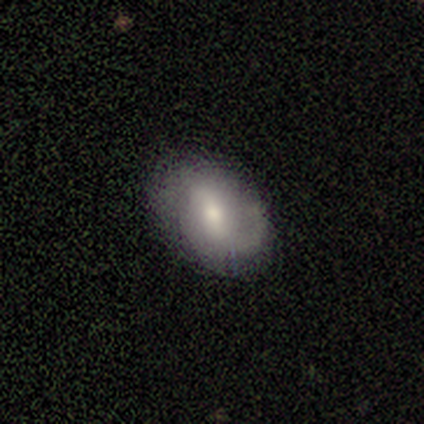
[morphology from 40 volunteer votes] smooth-or-featured: featured or disk: 60% | smooth: 38% | star or artifact: 2%
  disk-edge-on: no: 96% | yes: 4%
    bar: weak: 52% | strong: 26% | no: 22%
    has-spiral-arms: yes: 78% | no: 22%
      spiral-winding: medium: 67% | loose: 28% | tight: 6%
      spiral-arm-count: 1: 44% | 2: 39% | can't tell: 17% | 3: 0% | 4: 0% | more than 4: 0%
    bulge-size: moderate: 57% | small: 35% | large: 9% | dominant: 0% | none: 0%
  merging: none: 85% | minor disturbance: 10% | major disturbance: 5% | merger: 0%